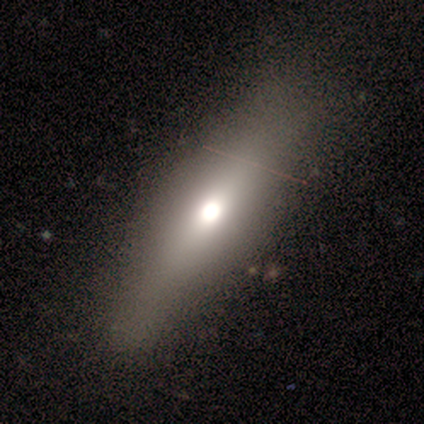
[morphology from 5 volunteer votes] This appears to be a smooth galaxy with no disk features (40%, tied with featured or disk) that is cigar-shaped (100%). Merging: none (100%).